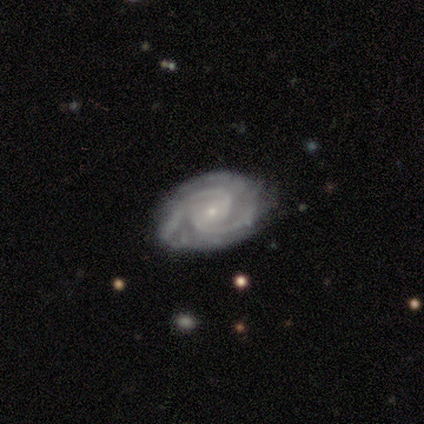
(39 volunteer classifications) A featured or disk galaxy (79%) with no bar (53%), 2 (60%) tight (77%) spiral arms (100%) and a small central bulge (77%).

Vote fractions:
- Smooth or featured? featured or disk: 79% / star or artifact: 13% / smooth: 8%
- Edge-on disk? no: 97% / yes: 3%
- Bar? no: 53% / weak: 33% / strong: 13%
- Spiral arms? yes: 100% / no: 0%
- Spiral winding? tight: 77% / medium: 23% / loose: 0%
- Spiral arm count? 2: 60% / 3: 13% / can't tell: 13% / 4: 7% / more than 4: 7% / 1: 0%
- Bulge size? small: 77% / moderate: 23% / dominant: 0% / large: 0% / none: 0%
- Merging? none: 71% / minor disturbance: 21% / major disturbance: 6% / merger: 3%